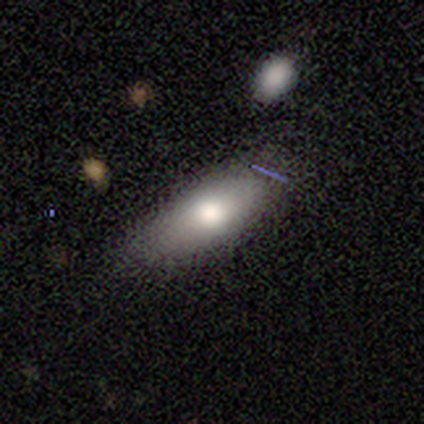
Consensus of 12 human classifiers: Morphology: type=smooth (92%); roundness=in between (100%); merging=none (82%).